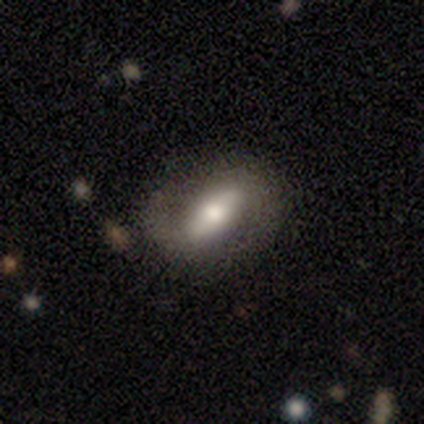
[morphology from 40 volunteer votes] Smooth or featured? featured or disk (68%)
Edge-on disk? no (93%)
Bar? strong (52%)
Spiral arms? yes (68%)
Spiral winding? loose (41%)
Spiral arm count? 2 (82%)
Bulge size? moderate (68%)
Merging? none (56%)